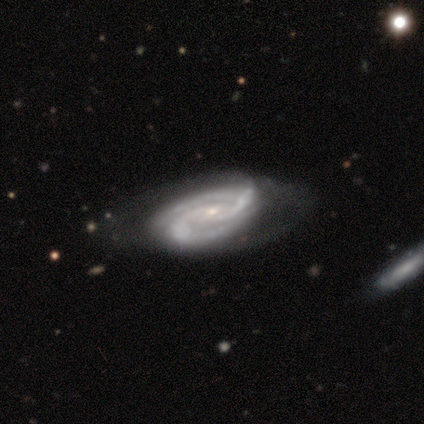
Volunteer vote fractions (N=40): Q: Smooth or featured?
A: featured or disk (98%); runner-up: smooth (2%)
Q: Edge-on disk?
A: no (97%); runner-up: yes (3%)
Q: Bar?
A: no (53%); runner-up: weak (34%)
Q: Spiral arms?
A: yes (100%)
Q: Spiral winding?
A: tight (53%); runner-up: medium (42%)
Q: Spiral arm count?
A: 2 (87%); runner-up: 3 (5%)
Q: Bulge size?
A: small (76%); runner-up: moderate (18%)
Q: Merging?
A: none (40%); runner-up: minor disturbance (25%)